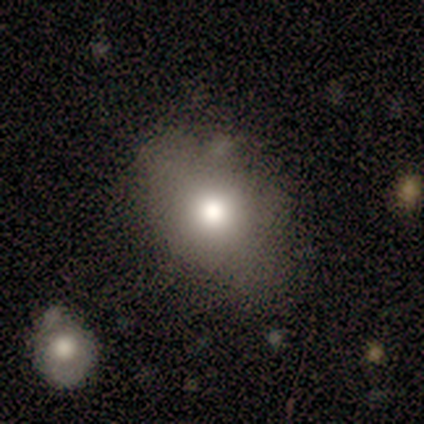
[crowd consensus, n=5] Smooth or featured? smooth (80%)
How rounded? round (50%, tied with in between)
Merging? none (80%)